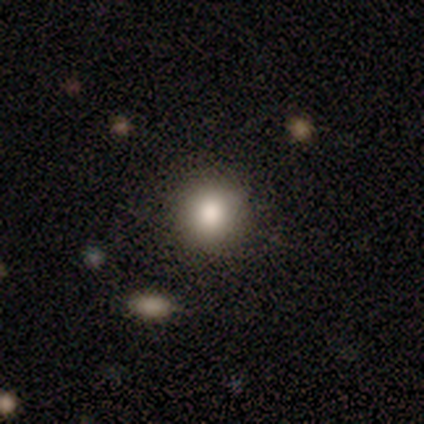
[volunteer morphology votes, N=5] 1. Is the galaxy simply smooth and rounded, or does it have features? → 100% smooth, 0% featured or disk, 0% star or artifact.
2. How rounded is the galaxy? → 100% round, 0% in between, 0% cigar-shaped.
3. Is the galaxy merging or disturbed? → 80% none, 20% major disturbance, 0% minor disturbance, 0% merger.